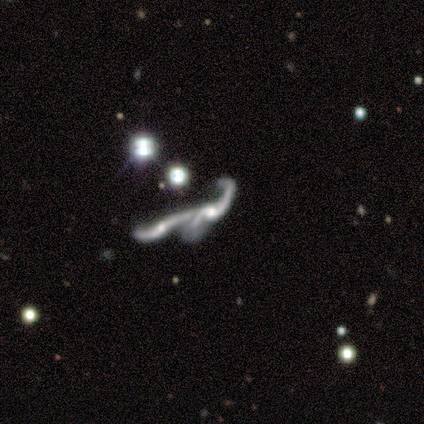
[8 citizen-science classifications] Volunteers were most divided on "spiral arms" (2-way tie): yes: 50%, no: 50%. More confident: edge-on disk — no (100%); spiral winding — loose (100%); spiral arm count — 2 (100%); smooth or featured — featured or disk (75%); merging — merger (67%); bar — no (50%); bulge size — none (50%).